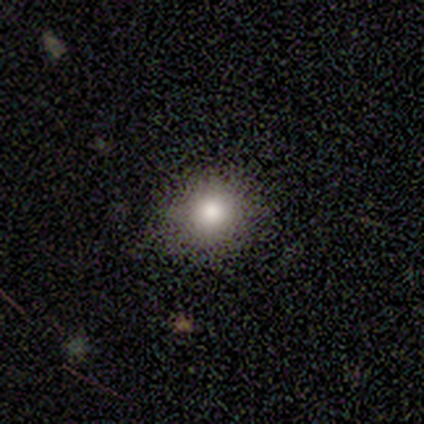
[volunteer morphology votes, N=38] Q: Smooth or featured?
A: smooth (71%); runner-up: featured or disk (18%)
Q: How rounded?
A: round (96%); runner-up: in between (4%)
Q: Merging?
A: none (97%); runner-up: minor disturbance (3%)